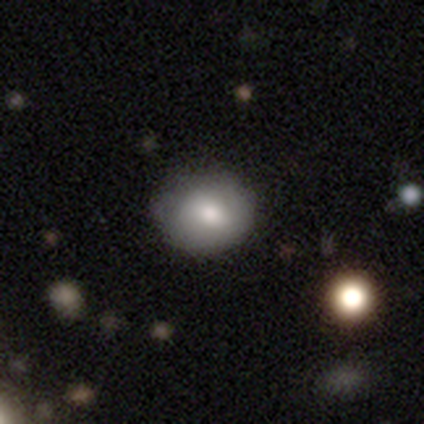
Smooth or featured: smooth — 73% (featured or disk — 27%)
How rounded: round — 62% (in between — 38%)
Merging: none — 73% (minor disturbance — 27%)